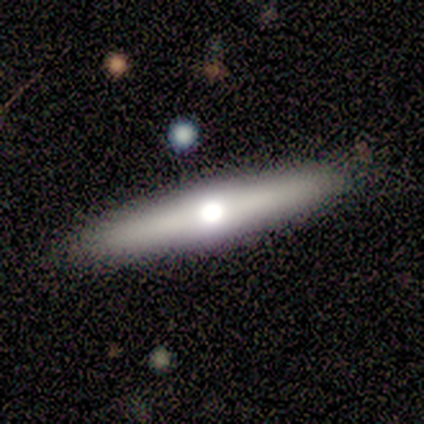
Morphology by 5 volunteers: featured or disk 60%, smooth 40%, star or artifact 0%. Down the decision tree: edge-on disk — yes (100%); edge-on bulge — rounded (100%); merging — none (100%).